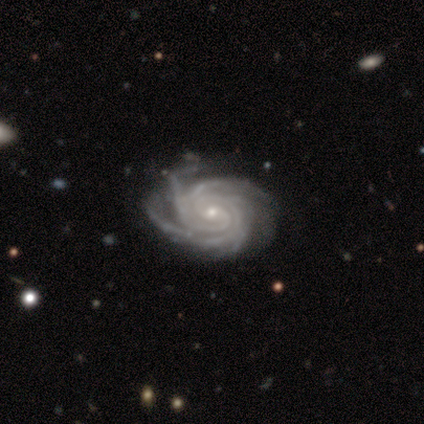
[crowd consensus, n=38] This appears to be a featured or disk galaxy (97%) with no bar (65%), 3 (30%) tight (76%) spiral arms (100%) and a small central bulge (73%). Merging: none (37%).